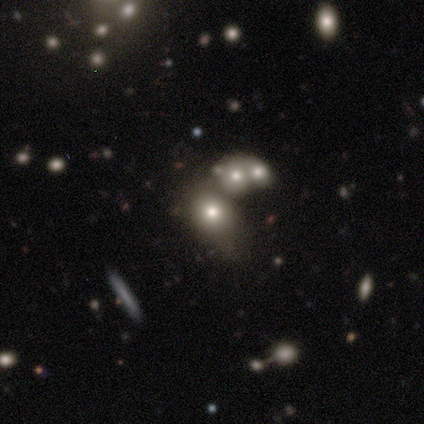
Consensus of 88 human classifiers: Smooth or featured: smooth — 56% (star or artifact — 30%)
How rounded: round — 59% (in between — 37%)
Merging: none — 40% (merger — 27%)